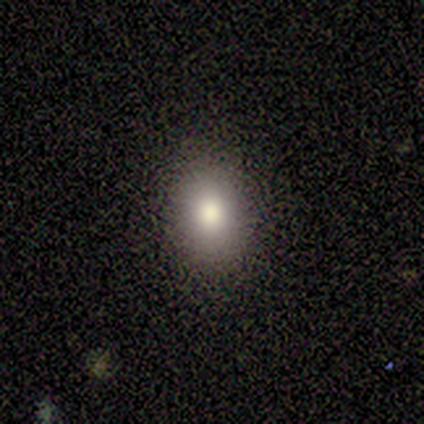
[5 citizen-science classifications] A smooth galaxy with no disk features (60%) that is round (67%). Merging: none (100%).